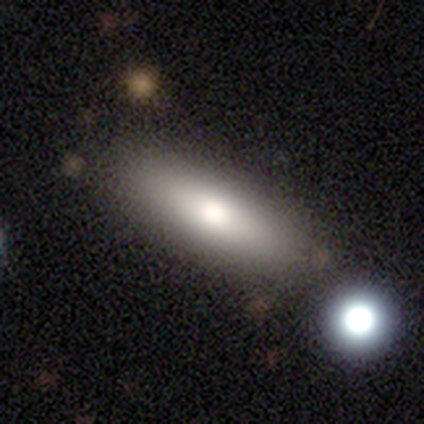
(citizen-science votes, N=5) Smooth or featured?
  - smooth: 80% *
  - featured or disk: 20%
  - star or artifact: 0%
How rounded?
  - cigar-shaped: 75% *
  - in between: 25%
  - round: 0%
Merging?
  - none: 80% *
  - merger: 20%
  - minor disturbance: 0%
  - major disturbance: 0%